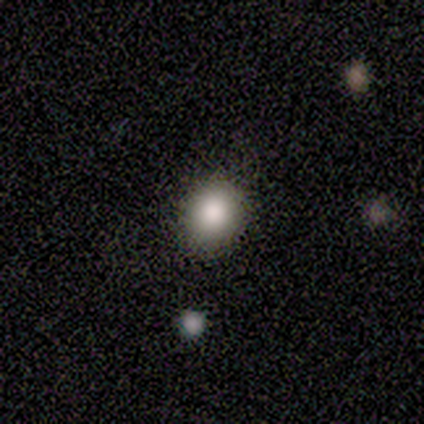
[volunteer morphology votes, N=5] This is clearly a smooth galaxy (100%). How rounded: likely in between (60%). Merging: clearly none (100%).